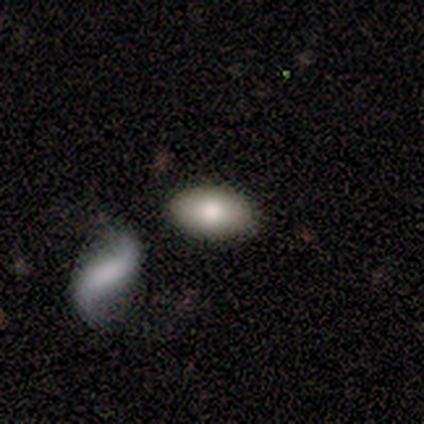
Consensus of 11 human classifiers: This is clearly a smooth galaxy (91%). How rounded: clearly in between (100%). Merging: clearly none (100%).